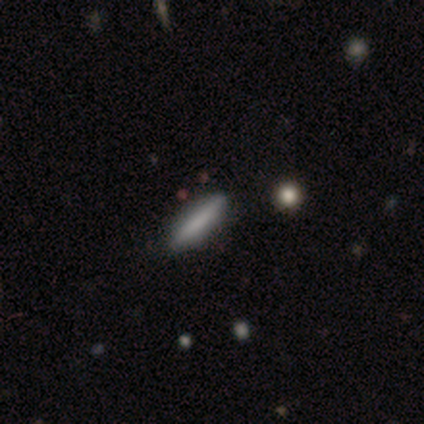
A smooth galaxy with no disk features (80%) that is cigar-shaped (75%). Merging: none (100%).